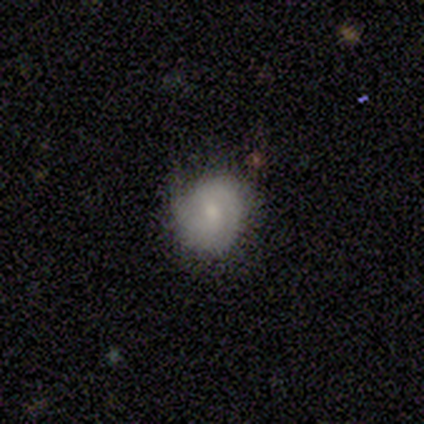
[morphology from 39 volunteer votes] Q: Smooth or featured?
A: smooth (44%); tied with: featured or disk (44%)
Q: How rounded?
A: round (71%); runner-up: in between (29%)
Q: Merging?
A: none (74%); runner-up: minor disturbance (24%)